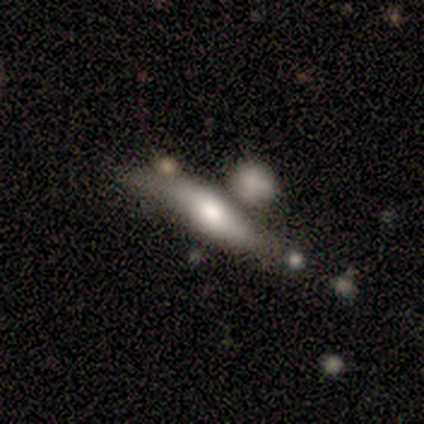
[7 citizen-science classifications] This is marginally a smooth galaxy (43%, tied with featured or disk). How rounded: likely cigar-shaped (67%). Merging: possibly none (50%).